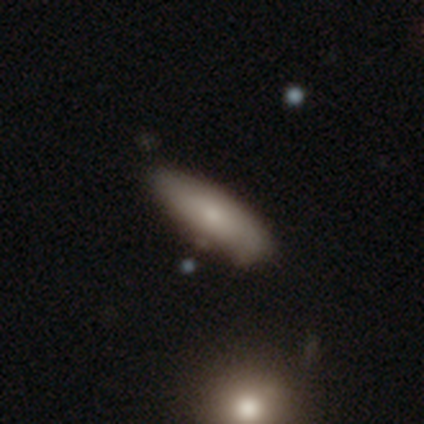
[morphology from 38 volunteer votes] This appears to be a smooth galaxy with no disk features (55%) that is in between round and cigar-shaped (71%). Merging: none (68%).